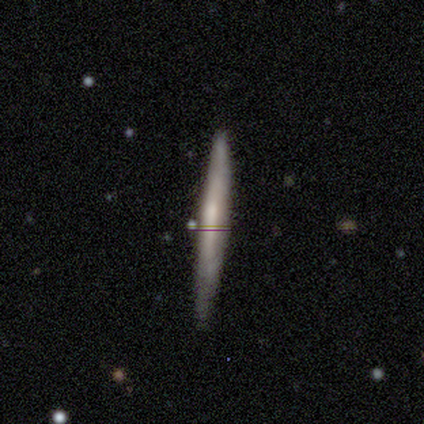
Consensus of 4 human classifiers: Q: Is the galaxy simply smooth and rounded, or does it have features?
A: smooth — 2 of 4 (50%, tied with featured or disk).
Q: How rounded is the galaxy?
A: cigar-shaped — 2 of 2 (100%).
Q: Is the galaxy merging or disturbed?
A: none — 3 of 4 (75%).